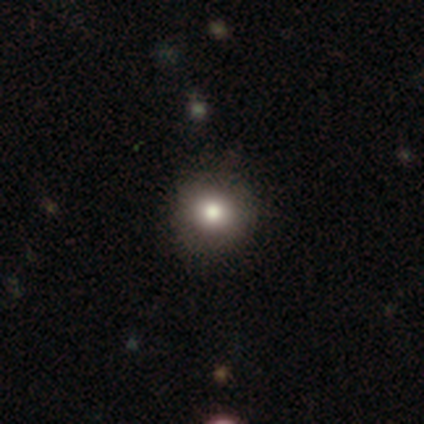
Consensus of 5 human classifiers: A smooth galaxy with no disk features (100%) that is round (100%).

Vote fractions:
- Smooth or featured? smooth: 100% / featured or disk: 0% / star or artifact: 0%
- How rounded? round: 100% / in between: 0% / cigar-shaped: 0%
- Merging? none: 80% / minor disturbance: 20% / major disturbance: 0% / merger: 0%